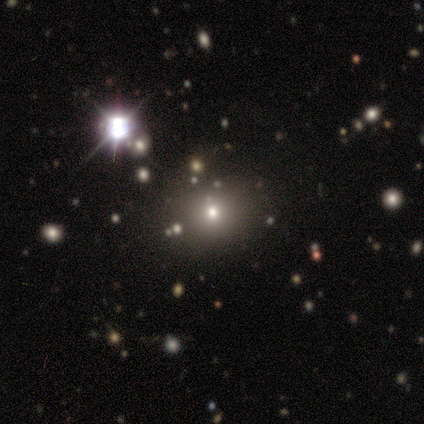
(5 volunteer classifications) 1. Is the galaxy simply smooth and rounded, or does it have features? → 60% star or artifact, 40% smooth, 0% featured or disk.